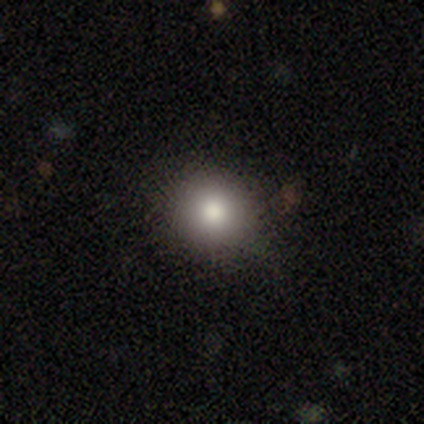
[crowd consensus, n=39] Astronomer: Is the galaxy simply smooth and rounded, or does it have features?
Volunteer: smooth — 85%.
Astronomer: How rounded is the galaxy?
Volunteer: round — 85%.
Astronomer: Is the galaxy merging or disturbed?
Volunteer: none — 88%.